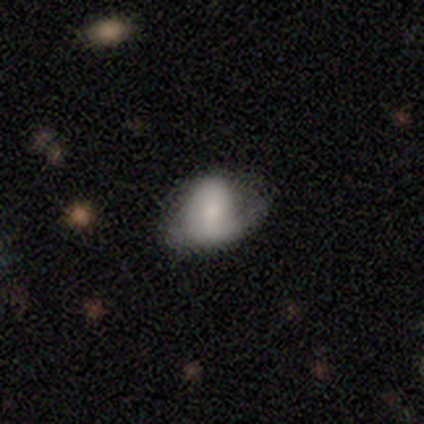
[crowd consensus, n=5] smooth-or-featured: featured or disk: 80% | smooth: 20% | star or artifact: 0%
  disk-edge-on: no: 100% | yes: 0%
    bar: no: 100% | strong: 0% | weak: 0%
    has-spiral-arms: yes: 50% (tied) | no: 50% (tied)
      spiral-winding: tight: 50% (tied) | loose: 50% (tied) | medium: 0%
      spiral-arm-count: 1: 50% (tied) | can't tell: 50% (tied) | 2: 0% | 3: 0% | 4: 0% | more than 4: 0%
    bulge-size: small: 75% | none: 25% | dominant: 0% | large: 0% | moderate: 0%
  merging: none: 60% | minor disturbance: 20% | major disturbance: 20% | merger: 0%